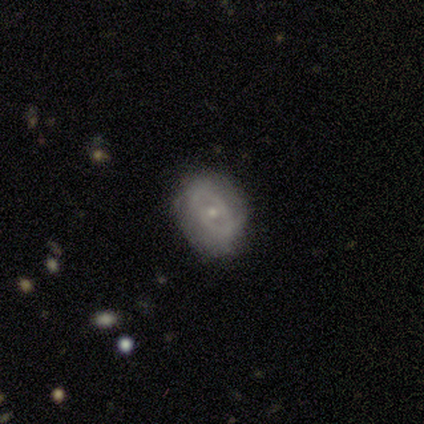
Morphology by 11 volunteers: Smooth or featured? 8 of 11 (73%) said featured or disk. Edge-on disk? 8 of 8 (100%) said no. Bar? 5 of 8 (62%) said no. Spiral arms? 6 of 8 (75%) said yes. Spiral winding? 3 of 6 (50%) said tight. Spiral arm count? 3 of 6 (50%) said can't tell. Bulge size? 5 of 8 (62%) said small. Merging? 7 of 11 (64%) said none.